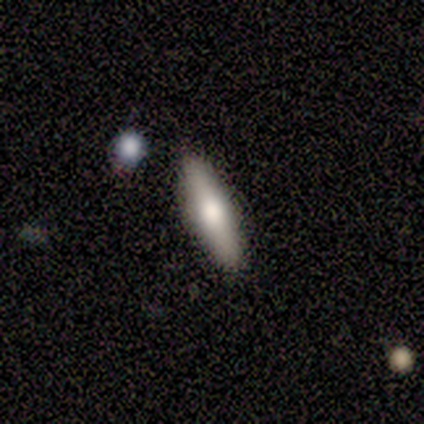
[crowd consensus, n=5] Q: Smooth or featured?
A: smooth (60%); runner-up: featured or disk (20%)
Q: How rounded?
A: cigar-shaped (100%)
Q: Merging?
A: none (75%); runner-up: minor disturbance (25%)